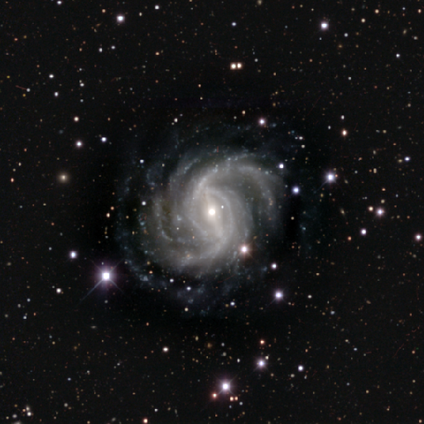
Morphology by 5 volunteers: This is clearly a featured or disk galaxy (100%). It is clearly not viewed edge-on (100%). Bar: marginally strong (40%, tied with weak). Spiral arm pattern: clearly yes (100%). Spiral arm count: marginally 2 (40%, tied with more than 4). Spiral winding: likely tight (60%). Central bulge: likely small (60%). Merging: likely none (60%).